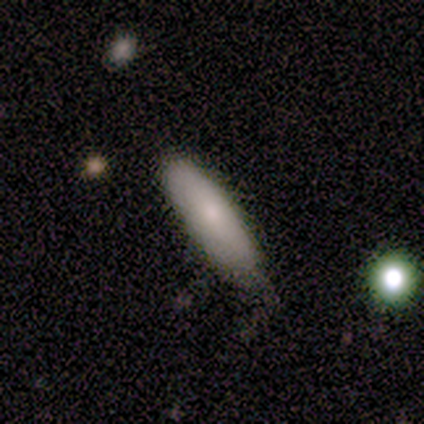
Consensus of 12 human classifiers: This appears to be a smooth galaxy with no disk features (92%) that is in between round and cigar-shaped (64%). Merging: none (83%).